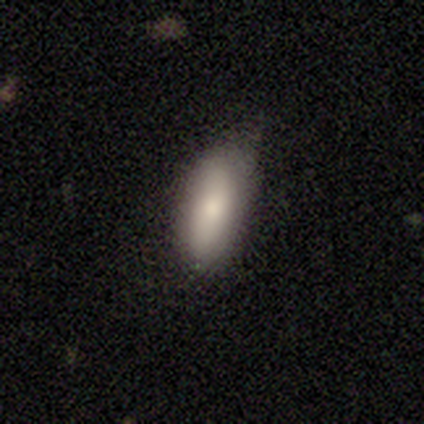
Overall: smooth (100%). How rounded: in between (100%). Merging: minor disturbance (67%; merger 33%).